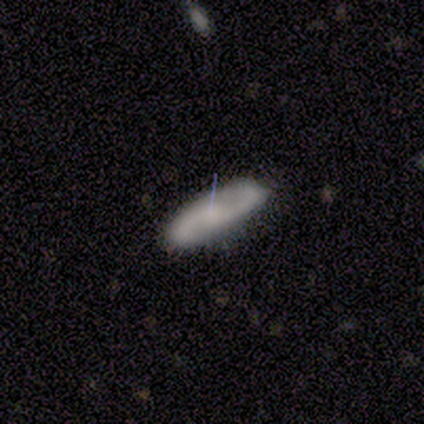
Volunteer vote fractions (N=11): Volunteers were most divided on "bulge size" (2-way tie): moderate: 43%, none: 43%, small: 14%, dominant: 0%, large: 0%. More confident: spiral arms — yes (100%); spiral arm count — 2 (100%); edge-on disk — no (88%); bar — no (86%); merging — none (82%); smooth or featured — featured or disk (73%); spiral winding — loose (57%).